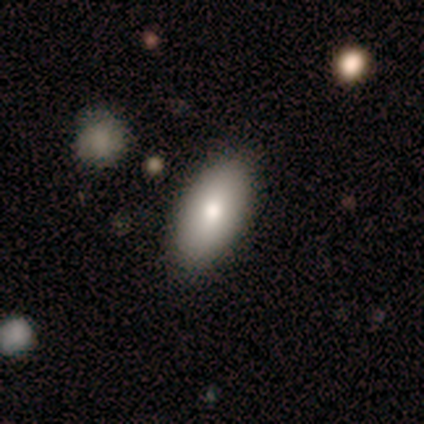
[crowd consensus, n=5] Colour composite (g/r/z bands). It shows a smooth galaxy with no disk features (100%) that is in between round and cigar-shaped (100%). Merging: none (80%).